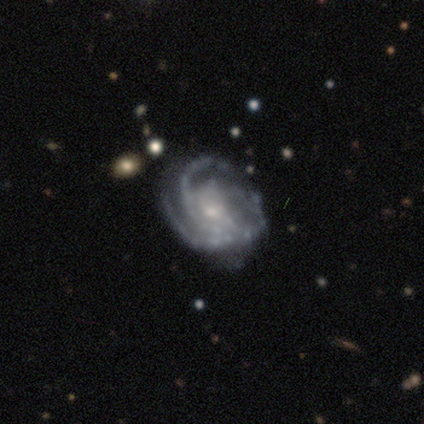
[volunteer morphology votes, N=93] Smooth or featured? 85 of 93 (91%) said featured or disk. Edge-on disk? 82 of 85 (96%) said no. Bar? 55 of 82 (67%) said no. Spiral arms? 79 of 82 (96%) said yes. Spiral winding? 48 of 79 (61%) said tight. Spiral arm count? 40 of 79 (51%) said 3. Bulge size? 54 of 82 (66%) said small. Merging? 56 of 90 (62%) said none.